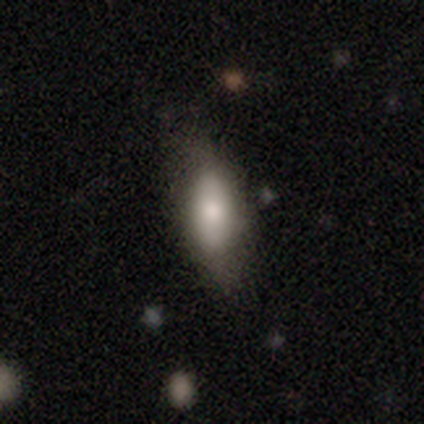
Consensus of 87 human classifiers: Smooth or featured: smooth — 78% (featured or disk — 16%)
How rounded: in between — 75% (cigar-shaped — 25%)
Merging: none — 67% (minor disturbance — 26%)